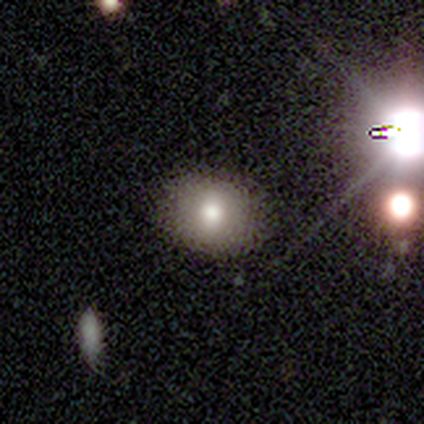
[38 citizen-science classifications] Q: Smooth or featured?
A: smooth (74%); runner-up: star or artifact (16%)
Q: How rounded?
A: round (57%); runner-up: in between (43%)
Q: Merging?
A: none (84%); runner-up: minor disturbance (12%)